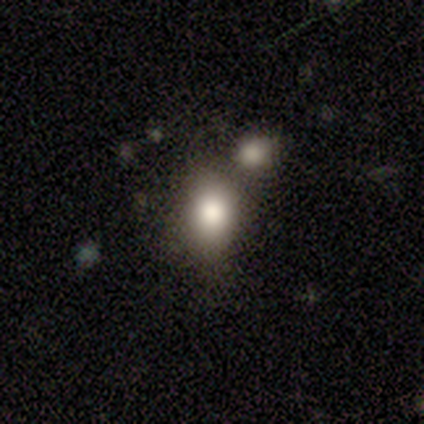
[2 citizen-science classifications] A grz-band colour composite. It shows a smooth galaxy with no disk features (50%, tied with star or artifact) that is in between round and cigar-shaped (100%). Merging: none (100%).